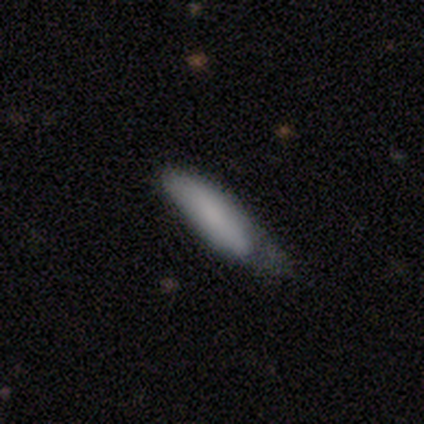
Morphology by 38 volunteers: Q: Smooth or featured?
A: smooth (74%); runner-up: featured or disk (13%)
Q: How rounded?
A: cigar-shaped (57%); runner-up: in between (43%)
Q: Merging?
A: minor disturbance (76%); runner-up: none (21%)